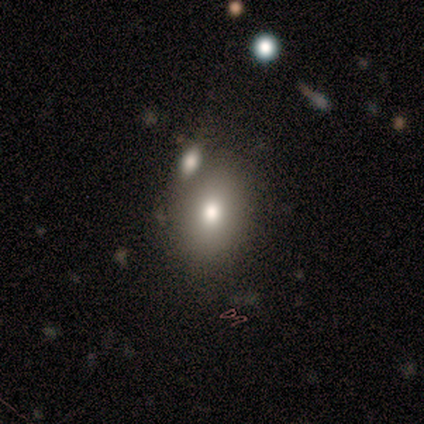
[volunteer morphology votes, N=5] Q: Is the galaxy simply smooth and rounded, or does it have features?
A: smooth — 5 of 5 (100%).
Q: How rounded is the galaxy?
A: in between — 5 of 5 (100%).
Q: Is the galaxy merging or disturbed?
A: none — 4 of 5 (80%).